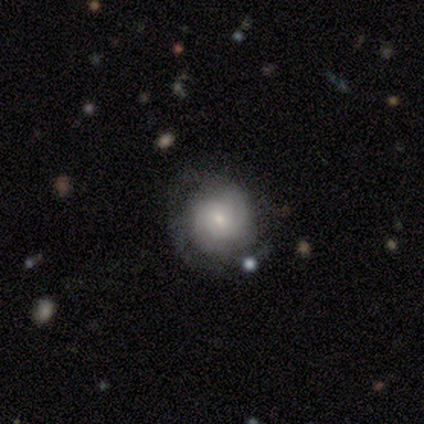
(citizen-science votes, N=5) smooth-or-featured: smooth: 80% | featured or disk: 20% | star or artifact: 0%
  how-rounded: round: 100% | in between: 0% | cigar-shaped: 0%
  merging: none: 40% (tied) | major disturbance: 40% (tied) | minor disturbance: 20% | merger: 0%